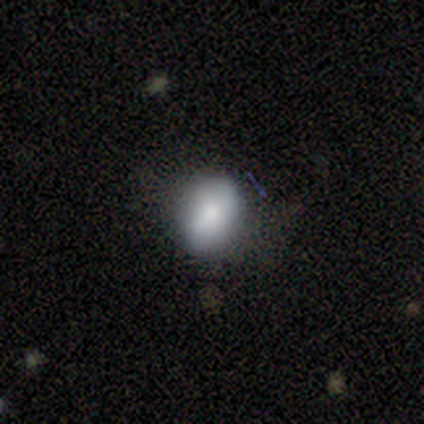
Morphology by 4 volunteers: A smooth galaxy with no disk features (100%) that is in between round and cigar-shaped (75%). Merging: none (75%).